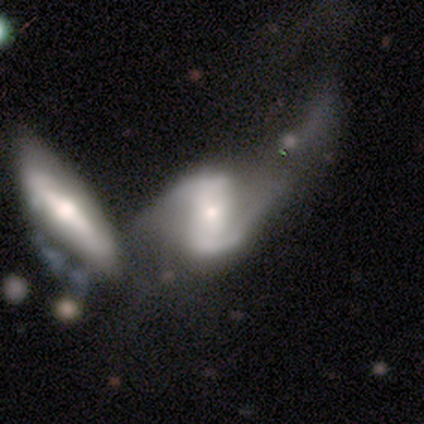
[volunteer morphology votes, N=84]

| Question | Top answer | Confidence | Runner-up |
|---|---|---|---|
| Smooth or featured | featured or disk | 83% | smooth (11%) |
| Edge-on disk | no | 100% | — |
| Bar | weak | 43% | strong (33%) |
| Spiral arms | yes | 87% | no (13%) |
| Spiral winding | loose | 59% | medium (36%) |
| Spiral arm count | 2 | 92% | can't tell (8%) |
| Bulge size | small | 51% | moderate (40%) |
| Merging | merger | 56% | major disturbance (24%) |